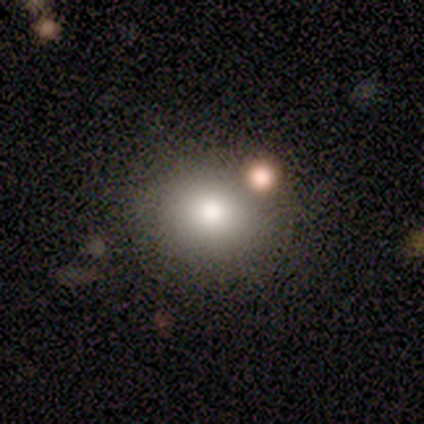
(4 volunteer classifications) This appears to be a smooth galaxy with no disk features (100%) that is round (75%). Merging: none (75%).